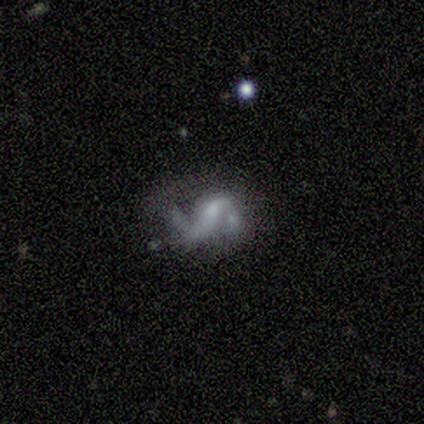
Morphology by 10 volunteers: This is clearly a featured or disk galaxy (90%). It is clearly not viewed edge-on (100%). Bar: marginally no (44%). Spiral arm pattern: clearly yes (89%). Spiral arm count: likely 2 (75%). Spiral winding: likely medium (75%). Central bulge: possibly none (56%). Merging: possibly none (50%).